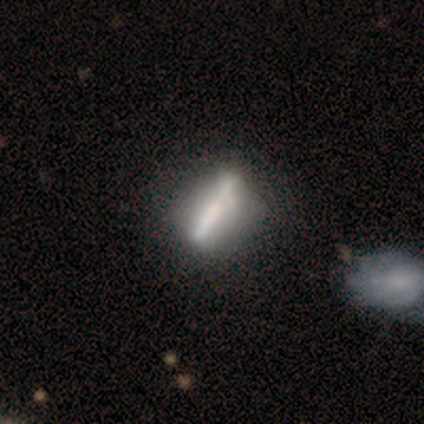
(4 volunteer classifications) This appears to be a featured or disk galaxy (75%) with a strong bar (100%), no spiral arms (100%) and a dominant central bulge (50%, tied with none). Merging: minor disturbance (75%).